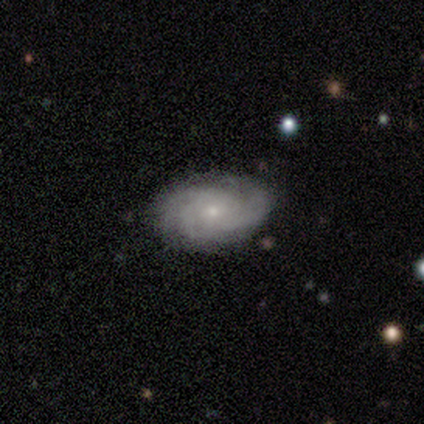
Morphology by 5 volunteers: smooth_or_featured: featured or disk (p=0.80) [alt: smooth p=0.20]
disk_edge_on: no (p=1.00)
bar: no (p=1.00)
has_spiral_arms: yes (p=1.00)
spiral_winding: tight (p=0.50) [tied with: medium p=0.50]
spiral_arm_count: can't tell (p=1.00)
bulge_size: small (p=1.00)
merging: none (p=0.60) [alt: minor disturbance p=0.40]